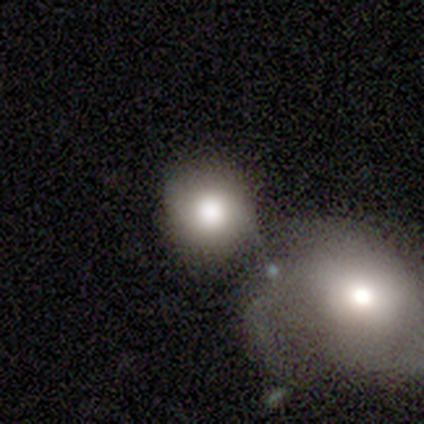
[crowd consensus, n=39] This is likely a smooth galaxy (72%). How rounded: clearly round (86%). Merging: marginally merger (44%).